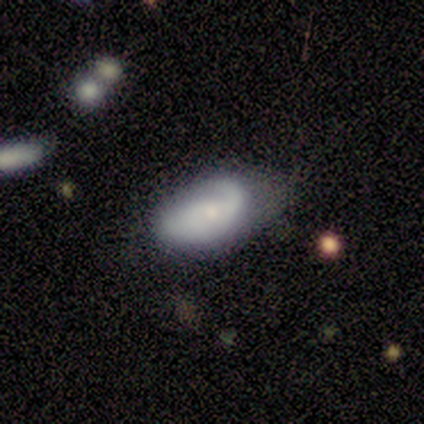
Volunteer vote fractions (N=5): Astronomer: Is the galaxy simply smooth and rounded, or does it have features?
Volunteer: featured or disk — 80%.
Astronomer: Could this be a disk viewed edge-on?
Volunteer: no — 100%.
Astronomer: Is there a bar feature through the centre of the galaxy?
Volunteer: no — 75%.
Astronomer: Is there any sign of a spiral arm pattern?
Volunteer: yes — 100%.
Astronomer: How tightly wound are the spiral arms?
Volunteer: tight — 50%.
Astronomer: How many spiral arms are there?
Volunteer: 1 — 50%.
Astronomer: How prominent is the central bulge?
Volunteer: moderate — 50%, tied with small at 50%.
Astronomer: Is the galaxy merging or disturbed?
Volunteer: none — 60%.